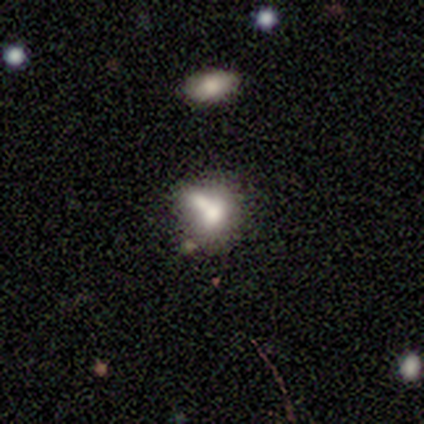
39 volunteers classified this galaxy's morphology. smooth-or-featured: smooth: 51% | featured or disk: 33% | star or artifact: 15%
  how-rounded: in between: 70% | round: 30% | cigar-shaped: 0%
  merging: merger: 48% | none: 21% | minor disturbance: 21% | major disturbance: 9%